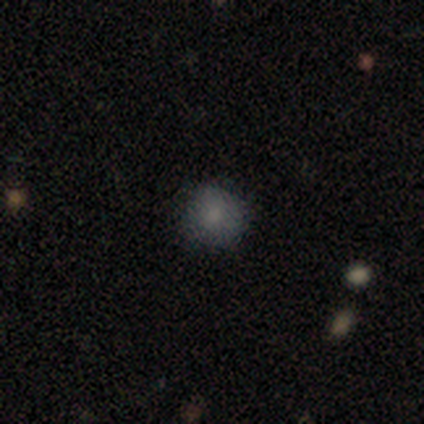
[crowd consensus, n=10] smooth_or_featured: smooth (p=0.80) [alt: star or artifact p=0.20]
how_rounded: round (p=0.88) [alt: in between p=0.12]
merging: none (p=0.88) [alt: minor disturbance p=0.12]